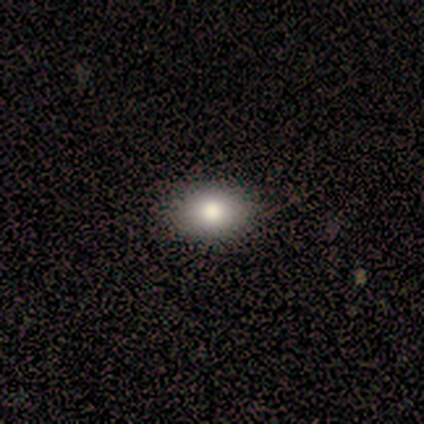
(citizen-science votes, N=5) Q: Smooth or featured?
A: smooth (80%); runner-up: star or artifact (20%)
Q: How rounded?
A: in between (100%)
Q: Merging?
A: none (100%)